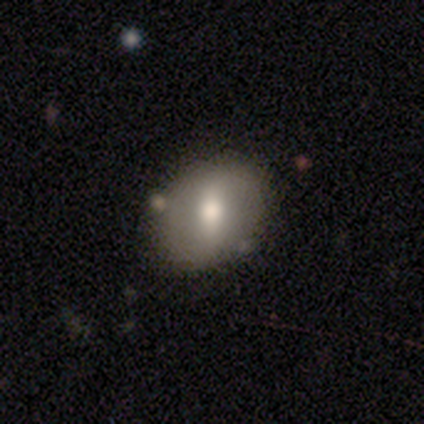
Smooth or featured?
  - smooth: 100% *
  - featured or disk: 0%
  - star or artifact: 0%
How rounded?
  - in between: 80% *
  - round: 20%
  - cigar-shaped: 0%
Merging?
  - none: 80% *
  - minor disturbance: 20%
  - major disturbance: 0%
  - merger: 0%